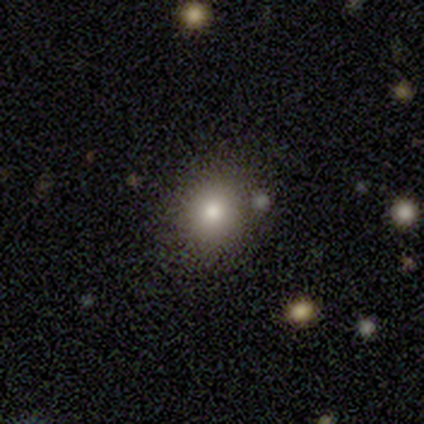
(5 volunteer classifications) Overall: smooth (60%; star or artifact 40%). How rounded: round (100%). Merging: none (100%).